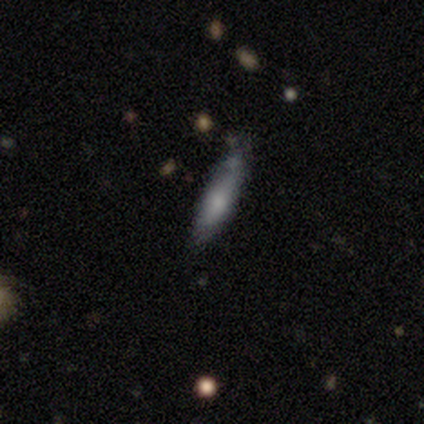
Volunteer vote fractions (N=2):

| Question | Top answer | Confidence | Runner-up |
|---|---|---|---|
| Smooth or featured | smooth | 100% | — |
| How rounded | cigar-shaped | 100% | — |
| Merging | none | 100% | — |